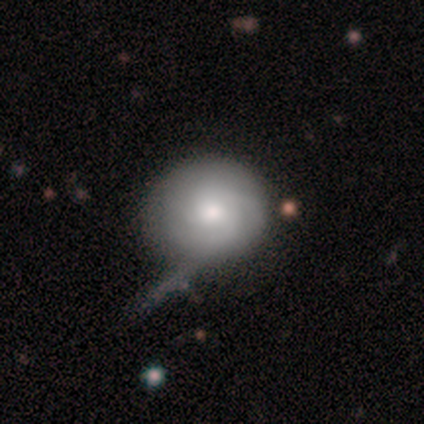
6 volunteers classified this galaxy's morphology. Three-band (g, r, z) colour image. It shows a smooth galaxy with no disk features (50%, tied with featured or disk) that is round (100%). Merging: minor disturbance (67%).